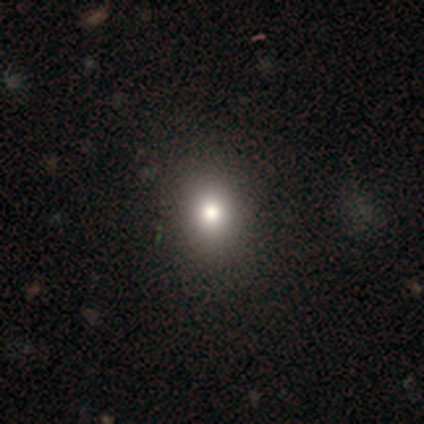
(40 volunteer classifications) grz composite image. It shows a smooth galaxy with no disk features (80%) that is round (75%). Merging: none (88%).